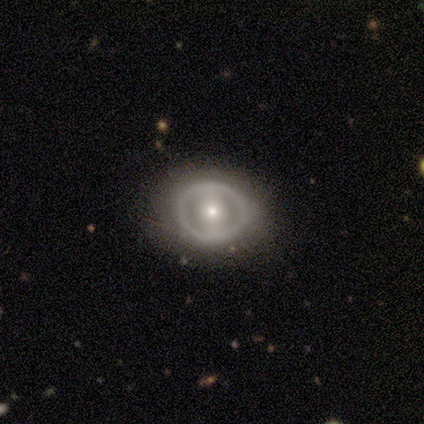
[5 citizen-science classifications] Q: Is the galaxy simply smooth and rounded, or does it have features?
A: featured or disk — 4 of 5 (80%).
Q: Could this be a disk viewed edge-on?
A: no — 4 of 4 (100%).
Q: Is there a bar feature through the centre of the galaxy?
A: strong — 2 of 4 (50%, tied with no).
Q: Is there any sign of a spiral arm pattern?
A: no — 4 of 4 (100%).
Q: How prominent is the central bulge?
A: moderate — 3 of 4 (75%).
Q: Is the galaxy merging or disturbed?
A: none — 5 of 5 (100%).